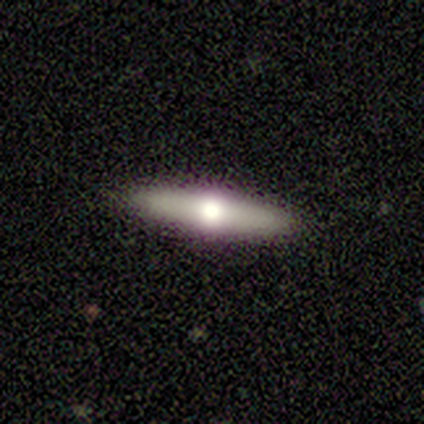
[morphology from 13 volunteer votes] smooth-or-featured: featured or disk: 69% | smooth: 31% | star or artifact: 0%
  disk-edge-on: yes: 78% | no: 22%
    edge-on-bulge: rounded: 100% | boxy: 0% | none: 0%
  merging: none: 77% | minor disturbance: 23% | major disturbance: 0% | merger: 0%